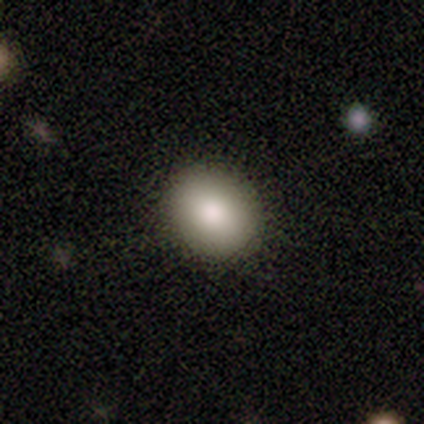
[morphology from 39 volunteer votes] A smooth galaxy with no disk features (95%) that is round (62%).

Vote fractions:
- Smooth or featured? smooth: 95% / featured or disk: 5% / star or artifact: 0%
- How rounded? round: 62% / in between: 38% / cigar-shaped: 0%
- Merging? none: 97% / minor disturbance: 3% / major disturbance: 0% / merger: 0%